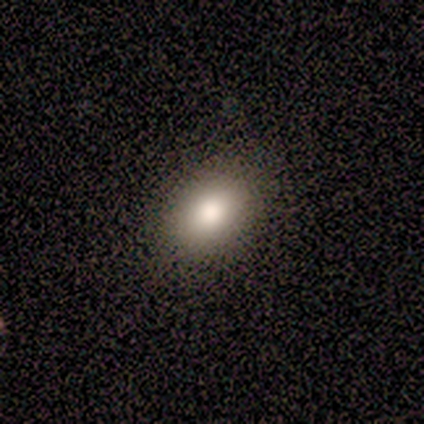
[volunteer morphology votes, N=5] Smooth or featured? smooth (100%)
How rounded? in between (100%)
Merging? none (100%)